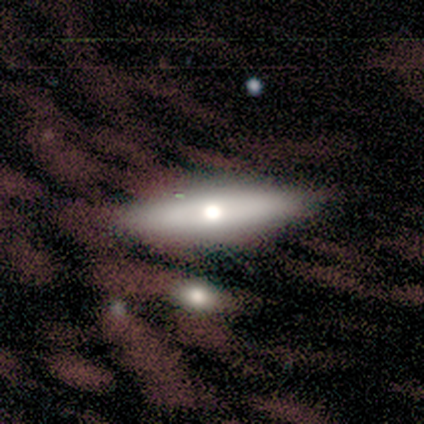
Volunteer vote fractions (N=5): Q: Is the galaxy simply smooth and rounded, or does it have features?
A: smooth — 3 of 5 (60%).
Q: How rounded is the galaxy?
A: cigar-shaped — 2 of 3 (67%).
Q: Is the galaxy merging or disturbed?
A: none — 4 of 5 (80%).